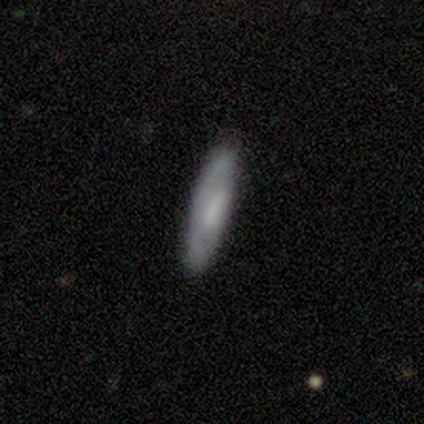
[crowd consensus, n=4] Q: Smooth or featured?
A: smooth (75%); runner-up: featured or disk (25%)
Q: How rounded?
A: cigar-shaped (67%); runner-up: in between (33%)
Q: Merging?
A: none (100%)